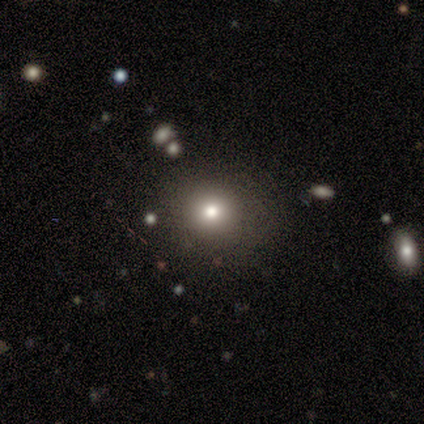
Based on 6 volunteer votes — Smooth or featured: smooth — 67% (featured or disk — 17%)
How rounded: round — 100%
Merging: none — 100%